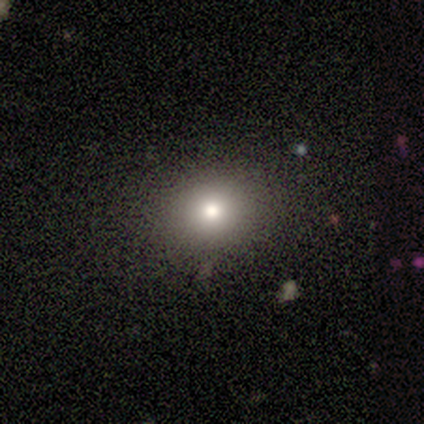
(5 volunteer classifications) smooth-or-featured: smooth: 100% | featured or disk: 0% | star or artifact: 0%
  how-rounded: in between: 80% | round: 20% | cigar-shaped: 0%
  merging: none: 80% | minor disturbance: 20% | major disturbance: 0% | merger: 0%